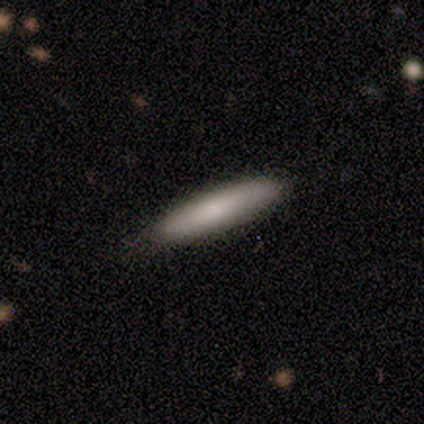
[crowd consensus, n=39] A smooth galaxy with no disk features (87%) that is cigar-shaped (88%). Merging: none (87%).